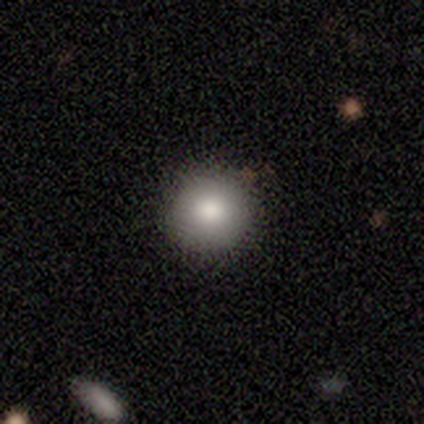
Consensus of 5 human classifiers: smooth 100%, featured or disk 0%, star or artifact 0%. Down the decision tree: how rounded — round (60%); merging — none (60%).